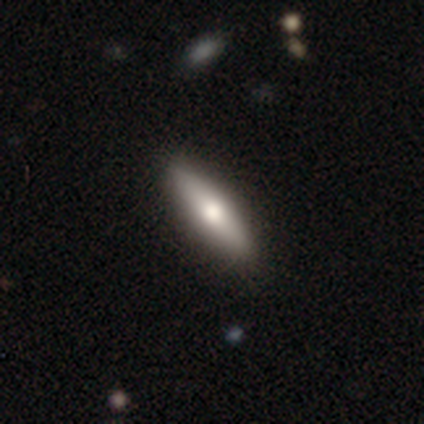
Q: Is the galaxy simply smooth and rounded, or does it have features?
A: smooth — 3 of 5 (60%).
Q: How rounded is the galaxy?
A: in between — 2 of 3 (67%).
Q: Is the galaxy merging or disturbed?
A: none — 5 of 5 (100%).